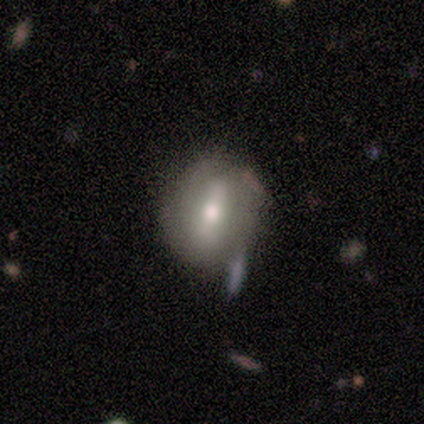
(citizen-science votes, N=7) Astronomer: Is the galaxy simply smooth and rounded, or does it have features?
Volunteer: smooth — 86%.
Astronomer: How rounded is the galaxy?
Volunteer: round — 50%, tied with in between at 50%.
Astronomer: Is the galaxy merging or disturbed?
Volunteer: none — 71%.